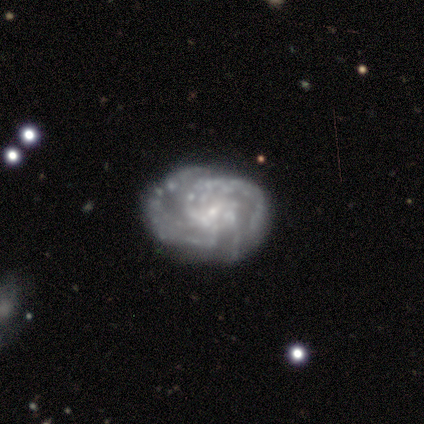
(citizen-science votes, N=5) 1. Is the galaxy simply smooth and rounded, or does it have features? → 80% featured or disk, 20% smooth, 0% star or artifact.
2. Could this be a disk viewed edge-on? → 100% no, 0% yes.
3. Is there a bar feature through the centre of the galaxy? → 100% no, 0% strong, 0% weak.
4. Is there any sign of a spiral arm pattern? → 100% yes, 0% no.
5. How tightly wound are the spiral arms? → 75% tight, 25% medium, 0% loose.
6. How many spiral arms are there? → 50% 3, 25% 2, 25% can't tell, 0% 1, 0% 4, 0% more than 4.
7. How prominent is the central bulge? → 100% small, 0% dominant, 0% large, 0% moderate, 0% none.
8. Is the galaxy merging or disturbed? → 80% none, 20% minor disturbance, 0% major disturbance, 0% merger.